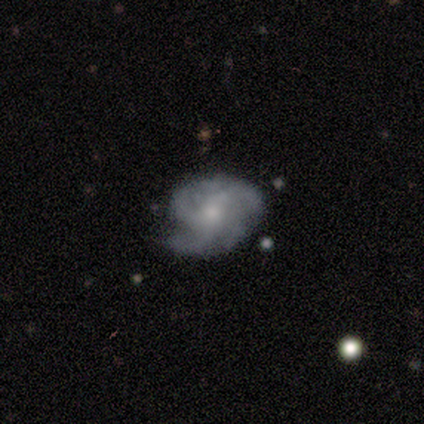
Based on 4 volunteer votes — Smooth or featured?
  - featured or disk: 100% *
  - smooth: 0%
  - star or artifact: 0%
Edge-on disk?
  - no: 100% *
  - yes: 0%
Bar?
  - no: 75% *
  - weak: 25%
  - strong: 0%
Spiral arms?
  - yes: 100% *
  - no: 0%
Spiral winding?
  - medium: 75% *
  - loose: 25%
  - tight: 0%
Spiral arm count?
  - 4: 100% *
  - 1: 0%
  - 2: 0%
  - 3: 0%
  - more than 4: 0%
  - can't tell: 0%
Bulge size?
  - moderate: 75% *
  - small: 25%
  - dominant: 0%
  - large: 0%
  - none: 0%
Merging?
  - none: 100% *
  - minor disturbance: 0%
  - major disturbance: 0%
  - merger: 0%